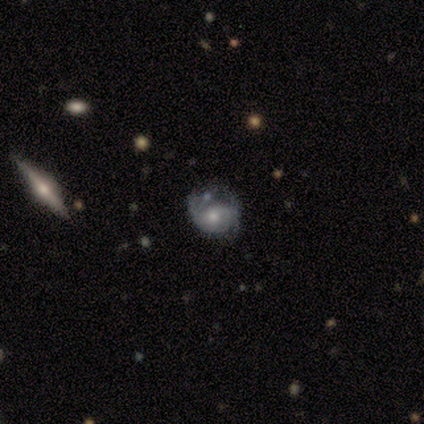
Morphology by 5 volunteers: smooth-or-featured: featured or disk: 80% | star or artifact: 20% | smooth: 0%
  disk-edge-on: no: 100% | yes: 0%
    bar: no: 100% | strong: 0% | weak: 0%
    has-spiral-arms: yes: 75% | no: 25%
      spiral-winding: tight: 67% | loose: 33% | medium: 0%
      spiral-arm-count: 1: 33% (tied) | 2: 33% (tied) | 3: 33% (tied) | 4: 0% | more than 4: 0% | can't tell: 0%
    bulge-size: moderate: 75% | small: 25% | dominant: 0% | large: 0% | none: 0%
  merging: none: 50% (tied) | minor disturbance: 50% (tied) | major disturbance: 0% | merger: 0%